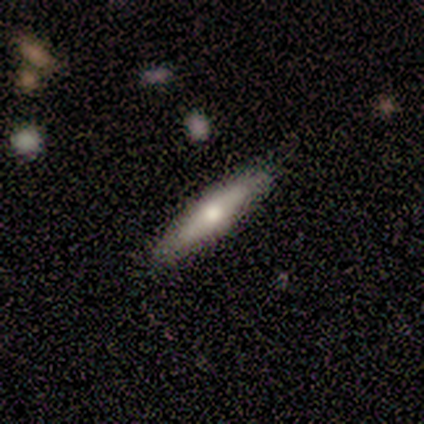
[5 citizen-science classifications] Volunteers were most divided on "how rounded": cigar-shaped: 67%, in between: 33%, round: 0%. More confident: merging — none (100%); smooth or featured — smooth (60%).